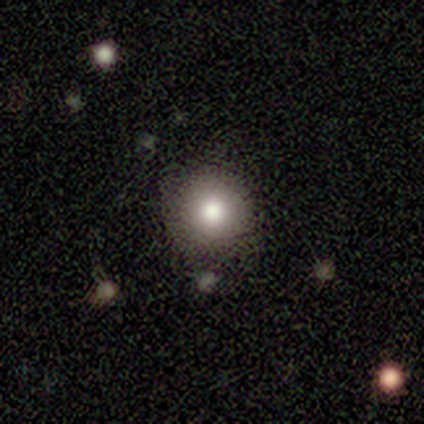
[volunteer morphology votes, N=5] Overall: smooth (100%). How rounded: round (100%). Merging: none (80%).